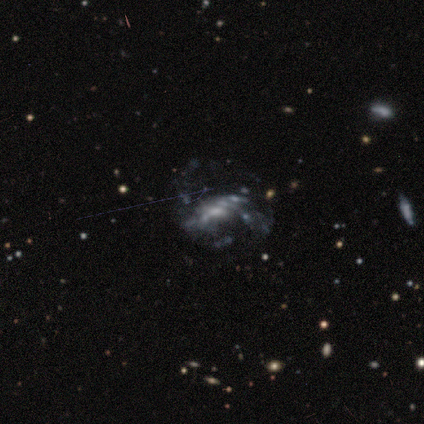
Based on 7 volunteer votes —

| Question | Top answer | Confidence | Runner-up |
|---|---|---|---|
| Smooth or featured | featured or disk | 71% | smooth (29%) |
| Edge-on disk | no | 100% | — |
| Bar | weak | 60% | strong (20%) |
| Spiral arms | yes | 80% | no (20%) |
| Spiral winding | loose | 100% | — |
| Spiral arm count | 2 | 50% | tied: can't tell (50%) |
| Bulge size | moderate | 40% | tied: none (40%) |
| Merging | major disturbance | 43% | merger (29%) |